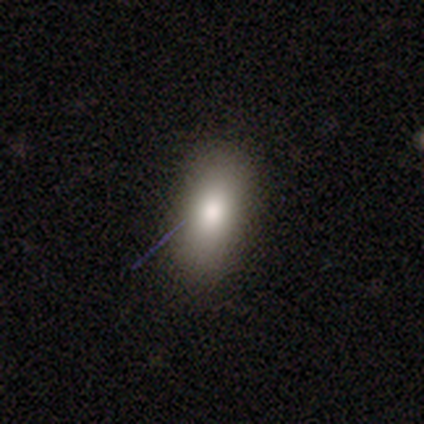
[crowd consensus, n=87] smooth 80%, star or artifact 15%, featured or disk 5%. Down the decision tree: how rounded — in between (84%); merging — none (84%).